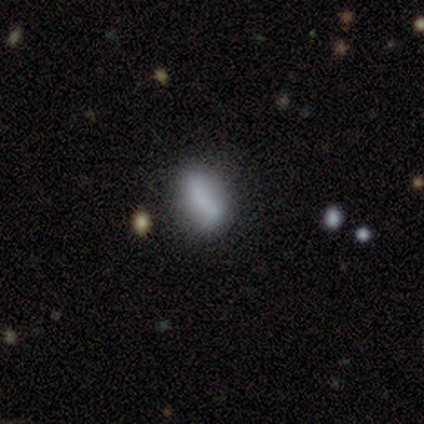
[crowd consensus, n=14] A smooth galaxy with no disk features (79%) that is in between round and cigar-shaped (91%). Merging: minor disturbance (54%).